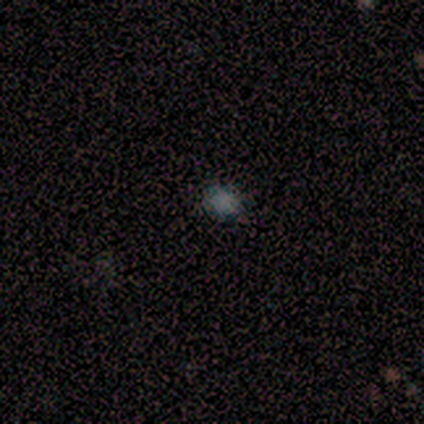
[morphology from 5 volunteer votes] Smooth or featured? smooth (80%)
How rounded? round (75%)
Merging? none (100%)